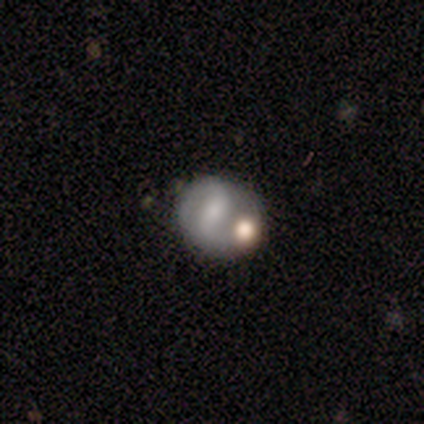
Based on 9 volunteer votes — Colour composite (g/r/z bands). It shows a featured or disk galaxy (67%) with a weak bar (67%), 2 (100%) loose (80%) spiral arms (83%) and a moderate central bulge (50%). Merging: none (44%).